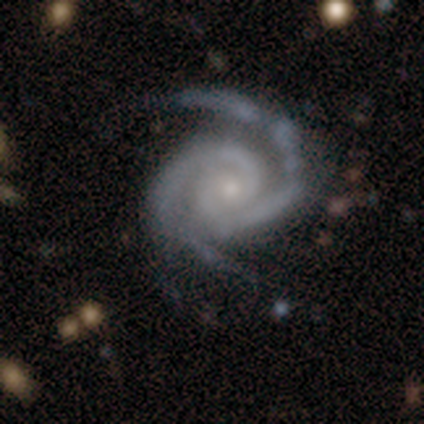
Smooth or featured: featured or disk — 92% (smooth — 8%)
Edge-on disk: no — 95% (yes — 5%)
Bar: no — 74% (weak — 17%)
Spiral arms: yes — 100%
Spiral winding: tight — 69% (medium — 26%)
Spiral arm count: 2 — 69% (3 — 29%)
Bulge size: small — 71% (moderate — 29%)
Merging: none — 57% (minor disturbance — 30%)